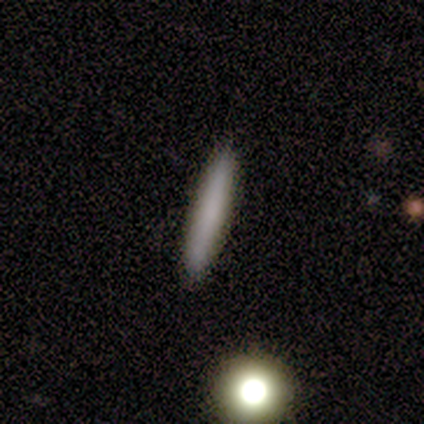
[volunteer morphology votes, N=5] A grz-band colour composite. It shows a smooth galaxy with no disk features (100%) that is cigar-shaped (100%). Merging: none (100%).